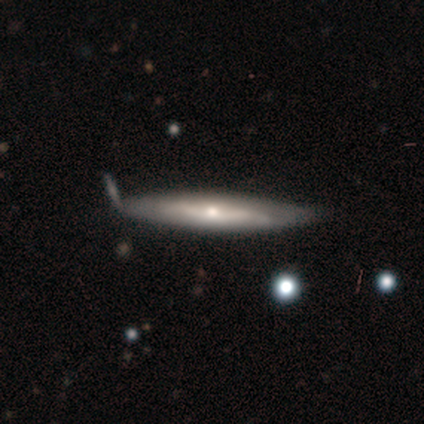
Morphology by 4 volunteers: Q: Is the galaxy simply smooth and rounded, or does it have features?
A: featured or disk — 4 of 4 (100%).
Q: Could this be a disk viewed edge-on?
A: yes — 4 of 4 (100%).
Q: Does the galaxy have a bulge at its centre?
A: rounded — 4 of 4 (100%).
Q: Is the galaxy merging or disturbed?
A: none — 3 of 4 (75%).